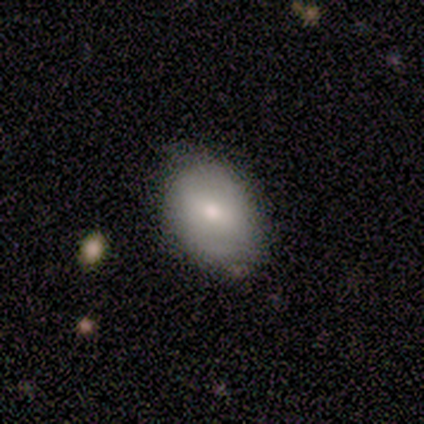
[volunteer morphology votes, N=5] type=smooth (60%); roundness=round (67%); merging=none (60%).